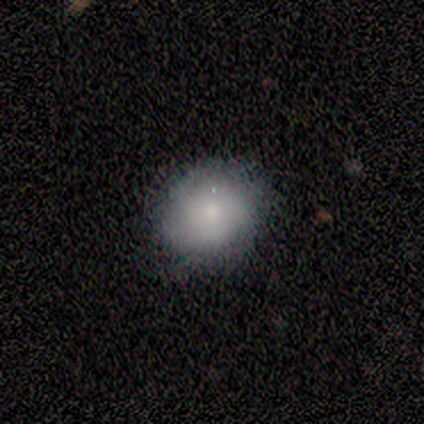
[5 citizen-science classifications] Volunteers were most divided on "how rounded": round: 80%, in between: 20%, cigar-shaped: 0%. More confident: smooth or featured — smooth (100%); merging — none (80%).